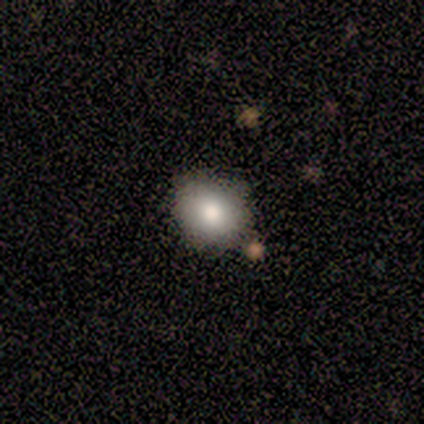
Smooth or featured?
  - smooth: 100% *
  - featured or disk: 0%
  - star or artifact: 0%
How rounded?
  - round: 60% *
  - in between: 40%
  - cigar-shaped: 0%
Merging?
  - none: 80% *
  - merger: 20%
  - minor disturbance: 0%
  - major disturbance: 0%